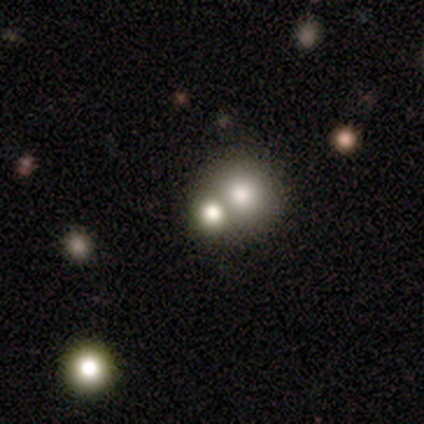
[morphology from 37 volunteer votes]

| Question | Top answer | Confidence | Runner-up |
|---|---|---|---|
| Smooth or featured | smooth | 46% | star or artifact (32%) |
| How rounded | round | 94% | in between (6%) |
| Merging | merger | 56% | none (40%) |